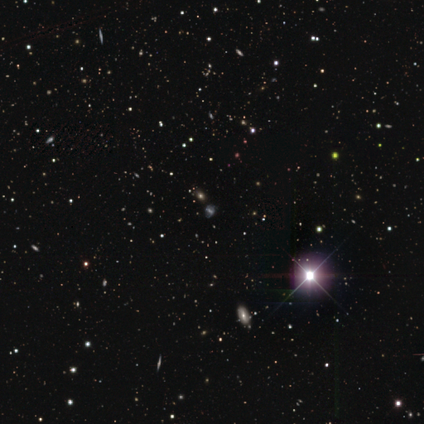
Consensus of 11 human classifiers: Volunteers were most divided on "smooth or featured": star or artifact: 73%, smooth: 27%, featured or disk: 0%.